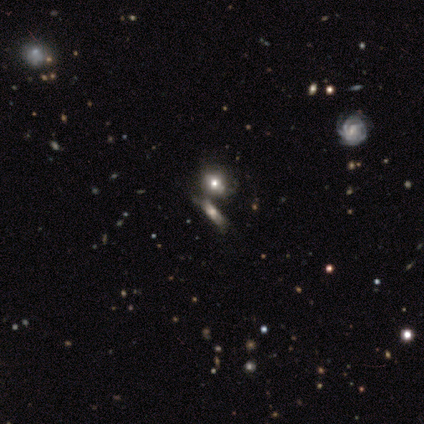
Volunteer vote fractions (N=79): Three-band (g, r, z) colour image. It shows a smooth galaxy with no disk features (51%) that is round (60%). Merging: merger (56%).